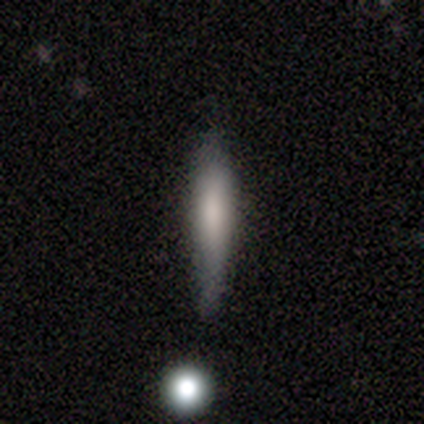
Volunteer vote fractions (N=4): smooth-or-featured: smooth: 75% | featured or disk: 25% | star or artifact: 0%
  how-rounded: cigar-shaped: 100% | round: 0% | in between: 0%
  merging: minor disturbance: 50% | none: 25% | major disturbance: 25% | merger: 0%